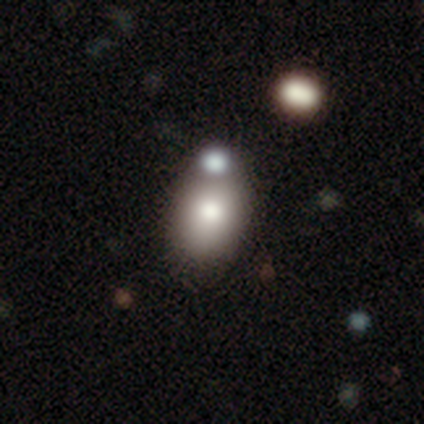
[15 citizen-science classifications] Smooth or featured: smooth — 93% (star or artifact — 7%)
How rounded: in between — 71% (round — 29%)
Merging: none — 79% (merger — 21%)